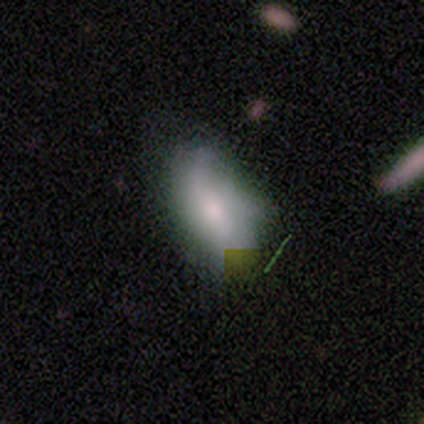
smooth 53%, featured or disk 40%, star or artifact 7%. Down the decision tree: how rounded — in between (100%); merging — none (50%).